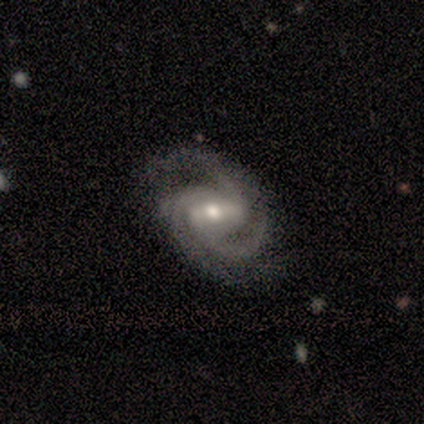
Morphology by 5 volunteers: Smooth or featured: featured or disk — 100%
Edge-on disk: no — 100%
Bar: strong — 40% (tied with no — 40%)
Spiral arms: yes — 100%
Spiral winding: medium — 40% (tied with loose — 40%)
Spiral arm count: 3 — 100%
Bulge size: small — 60% (moderate — 40%)
Merging: none — 100%